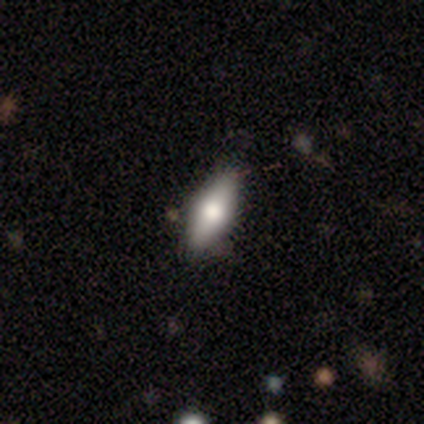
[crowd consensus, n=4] smooth 75%, star or artifact 25%, featured or disk 0%. Down the decision tree: how rounded — in between (67%); merging — none (67%).